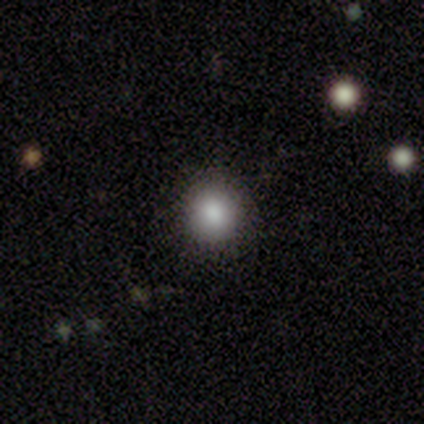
Smooth or featured? smooth (100%)
How rounded? round (100%)
Merging? none (100%)